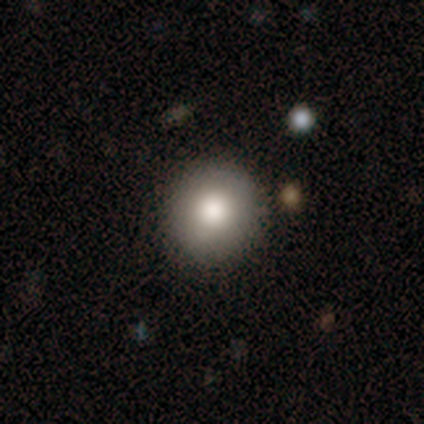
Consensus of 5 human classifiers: smooth_or_featured: smooth (p=0.60) [alt: star or artifact p=0.40]
how_rounded: round (p=1.00)
merging: none (p=1.00)